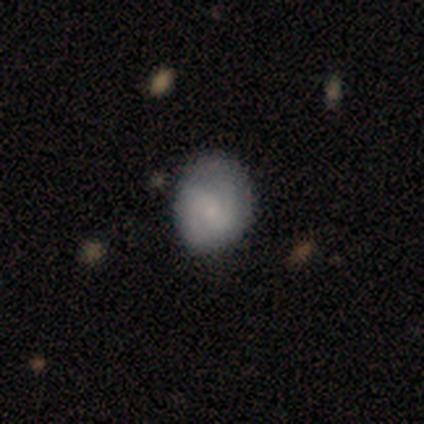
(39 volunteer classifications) A featured or disk galaxy (44%) with no bar (62%), 2 (79%) medium (50%) spiral arms (88%) and a small central bulge (50%).

Vote fractions:
- Smooth or featured? featured or disk: 44% / smooth: 38% / star or artifact: 18%
- Edge-on disk? no: 94% / yes: 6%
- Bar? no: 62% / weak: 31% / strong: 6%
- Spiral arms? yes: 88% / no: 12%
- Spiral winding? medium: 50% / tight: 43% / loose: 7%
- Spiral arm count? 2: 79% / 3: 7% / 4: 7% / can't tell: 7% / 1: 0% / more than 4: 0%
- Bulge size? small: 50% / moderate: 31% / dominant: 6% / large: 6% / none: 6%
- Merging? none: 78% / minor disturbance: 19% / major disturbance: 3% / merger: 0%